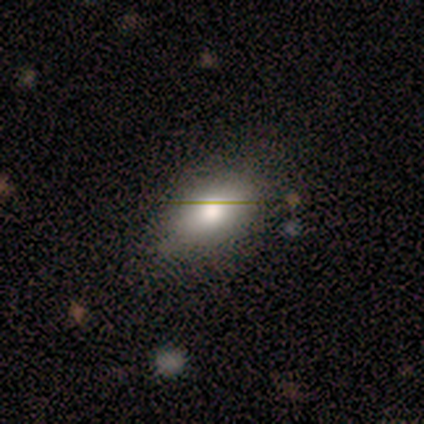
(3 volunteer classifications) Smooth or featured: smooth — 67% (star or artifact — 33%)
How rounded: round — 100%
Merging: none — 50% (tied with major disturbance — 50%)